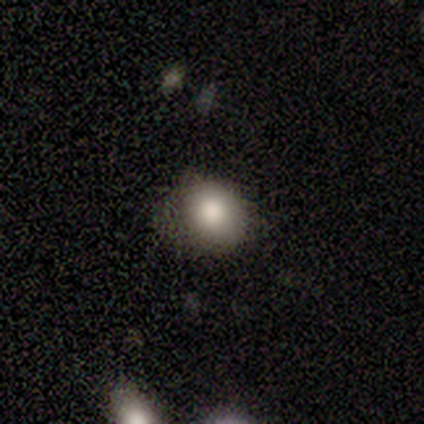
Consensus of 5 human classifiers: A smooth galaxy with no disk features (60%) that is round (67%). Merging: none (100%).